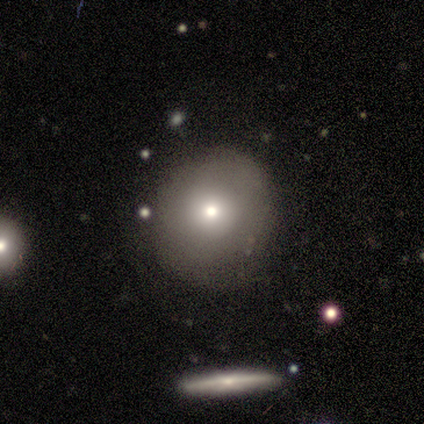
Smooth or featured? 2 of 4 (50%) said smooth. How rounded? 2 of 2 (100%) said round. Merging? 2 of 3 (67%) said none.